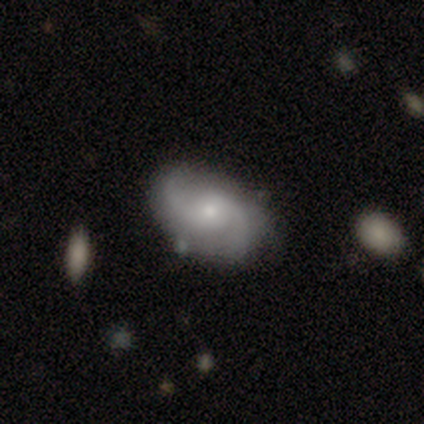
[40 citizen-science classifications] A featured or disk galaxy (80%) with no bar (74%), 2 (90%) medium (47%) spiral arms (97%) and a small central bulge (61%).

Vote fractions:
- Smooth or featured? featured or disk: 80% / smooth: 18% / star or artifact: 2%
- Edge-on disk? no: 97% / yes: 3%
- Bar? no: 74% / weak: 23% / strong: 3%
- Spiral arms? yes: 97% / no: 3%
- Spiral winding? medium: 47% / loose: 33% / tight: 20%
- Spiral arm count? 2: 90% / can't tell: 7% / 3: 3% / 1: 0% / 4: 0% / more than 4: 0%
- Bulge size? small: 61% / moderate: 32% / large: 3% / none: 3% / dominant: 0%
- Merging? none: 82% / minor disturbance: 10% / merger: 5% / major disturbance: 3%